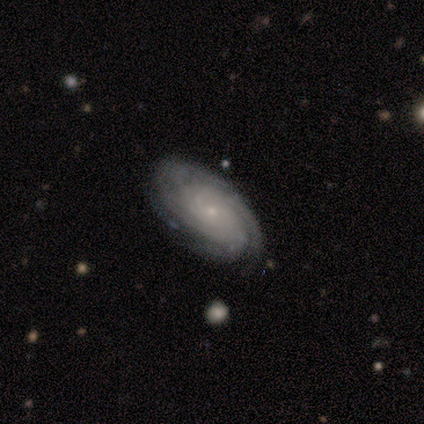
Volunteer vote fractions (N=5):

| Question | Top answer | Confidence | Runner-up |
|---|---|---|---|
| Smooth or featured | featured or disk | 100% | — |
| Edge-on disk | no | 100% | — |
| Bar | no | 80% | weak (20%) |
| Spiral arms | yes | 80% | no (20%) |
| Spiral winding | tight | 100% | — |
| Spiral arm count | more than 4 | 50% | 3 (25%) |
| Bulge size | small | 80% | moderate (20%) |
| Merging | none | 100% | — |